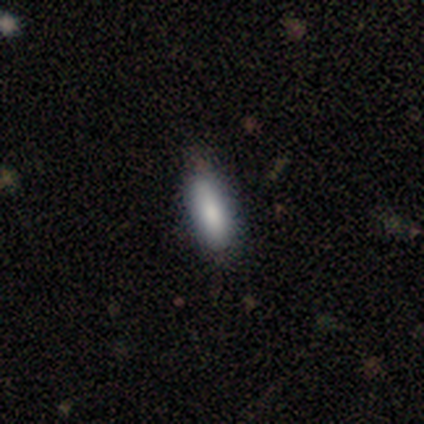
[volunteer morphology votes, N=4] This appears to be a smooth galaxy with no disk features (100%) that is cigar-shaped (75%). Merging: none (100%).